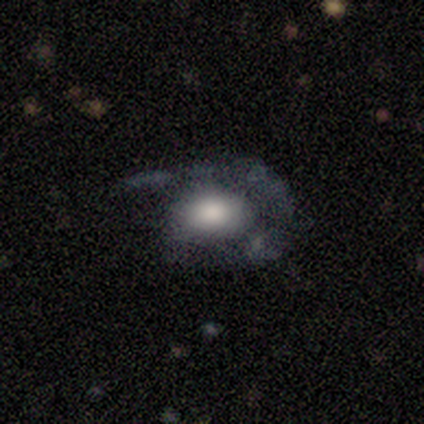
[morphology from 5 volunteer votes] A featured or disk galaxy (60%) with no bar (67%), 1 (100%) medium (100%) spiral arms (67%) and a large central bulge (100%). Merging: minor disturbance (40%, tied with major disturbance).